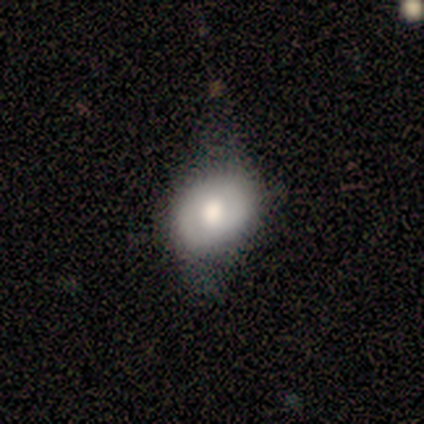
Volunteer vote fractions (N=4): smooth-or-featured: featured or disk: 50% | smooth: 25% | star or artifact: 25%
  disk-edge-on: no: 100% | yes: 0%
    bar: weak: 50% (tied) | no: 50% (tied) | strong: 0%
    has-spiral-arms: yes: 50% (tied) | no: 50% (tied)
      spiral-winding: tight: 100% | medium: 0% | loose: 0%
      spiral-arm-count: can't tell: 100% | 1: 0% | 2: 0% | 3: 0% | 4: 0% | more than 4: 0%
    bulge-size: large: 50% (tied) | moderate: 50% (tied) | dominant: 0% | small: 0% | none: 0%
  merging: minor disturbance: 67% | none: 33% | major disturbance: 0% | merger: 0%